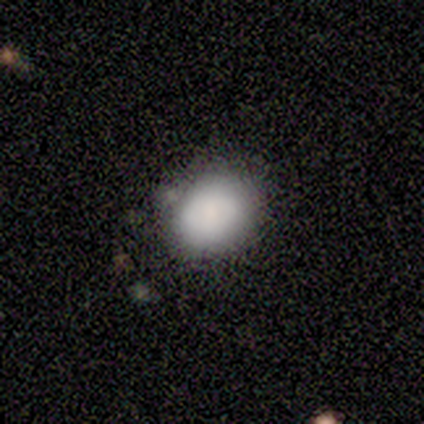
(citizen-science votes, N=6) Smooth or featured: smooth — 83% (featured or disk — 17%)
How rounded: in between — 60% (round — 40%)
Merging: none — 67% (minor disturbance — 33%)